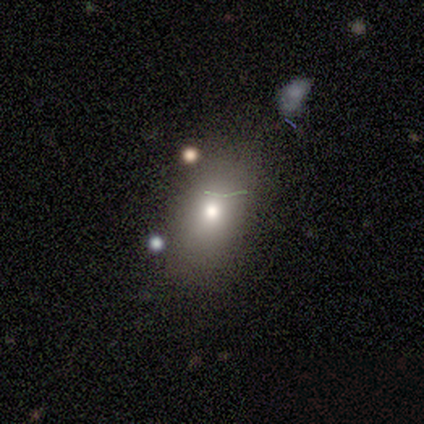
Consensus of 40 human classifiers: smooth_or_featured: smooth (p=0.70) [alt: featured or disk p=0.15]
how_rounded: in between (p=0.79) [alt: round p=0.21]
merging: none (p=0.62) [alt: minor disturbance p=0.18]